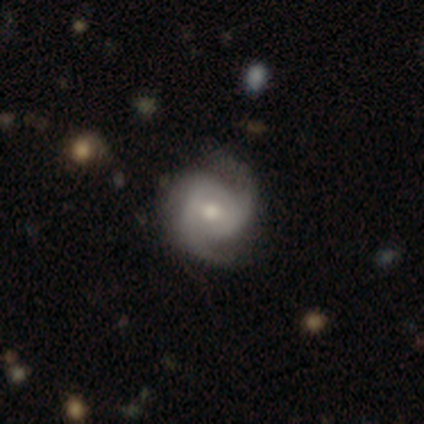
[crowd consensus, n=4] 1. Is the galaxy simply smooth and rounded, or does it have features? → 75% featured or disk, 25% star or artifact, 0% smooth.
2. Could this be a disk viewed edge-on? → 100% no, 0% yes.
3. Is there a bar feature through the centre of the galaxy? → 33% strong (tied), 33% weak (tied), 33% no (tied).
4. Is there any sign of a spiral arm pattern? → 100% yes, 0% no.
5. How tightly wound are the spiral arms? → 67% tight, 33% medium, 0% loose.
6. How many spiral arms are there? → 67% 2, 33% 3, 0% 1, 0% 4, 0% more than 4, 0% can't tell.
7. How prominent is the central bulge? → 67% moderate, 33% large, 0% dominant, 0% small, 0% none.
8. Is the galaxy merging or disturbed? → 100% none, 0% minor disturbance, 0% major disturbance, 0% merger.